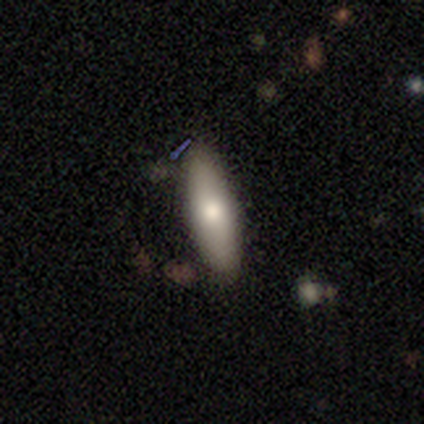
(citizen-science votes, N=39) Overall: smooth (69%). How rounded: cigar-shaped (52%; in between 48%). Merging: none (83%).